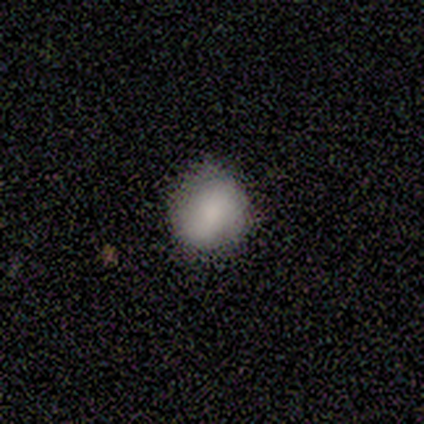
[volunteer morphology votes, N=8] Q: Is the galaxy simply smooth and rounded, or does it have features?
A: smooth — 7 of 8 (88%).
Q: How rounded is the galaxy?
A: round — 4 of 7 (57%).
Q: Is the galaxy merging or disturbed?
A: none — 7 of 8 (88%).